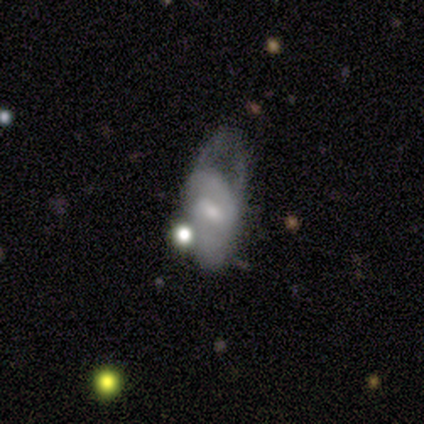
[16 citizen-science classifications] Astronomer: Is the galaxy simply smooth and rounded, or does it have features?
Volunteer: featured or disk — 62%.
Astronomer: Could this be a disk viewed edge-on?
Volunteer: no — 90%.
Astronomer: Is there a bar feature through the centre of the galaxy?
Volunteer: weak — 67%.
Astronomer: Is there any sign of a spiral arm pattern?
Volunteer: yes — 56% (runner-up: no, 44%).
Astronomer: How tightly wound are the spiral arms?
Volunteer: medium — 60% (runner-up: tight, 40%).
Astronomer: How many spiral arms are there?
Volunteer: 1 — 40% (runner-up: 2, 20%).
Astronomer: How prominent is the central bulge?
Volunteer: small — 67%.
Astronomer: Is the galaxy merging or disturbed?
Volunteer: major disturbance — 71%.